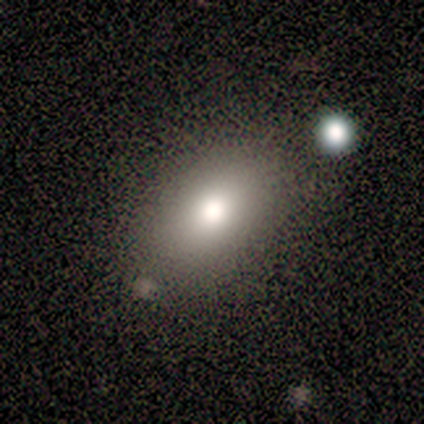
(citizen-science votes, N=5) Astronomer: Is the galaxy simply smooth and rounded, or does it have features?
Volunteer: smooth — 80%.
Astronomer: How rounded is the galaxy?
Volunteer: in between — 100%.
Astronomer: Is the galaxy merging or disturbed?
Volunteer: none — 60% (runner-up: minor disturbance, 40%).